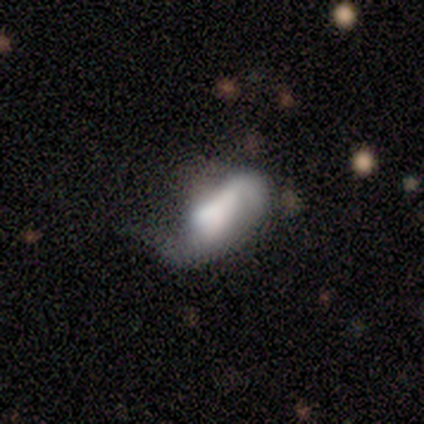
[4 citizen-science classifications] featured or disk 75%, smooth 25%, star or artifact 0%. Down the decision tree: edge-on disk — no (100%); bar — no (67%); spiral arms — yes (67%); spiral arm count — 2 (100%); spiral winding — medium (50%, tied with loose); bulge size — large (67%); merging — major disturbance (75%).